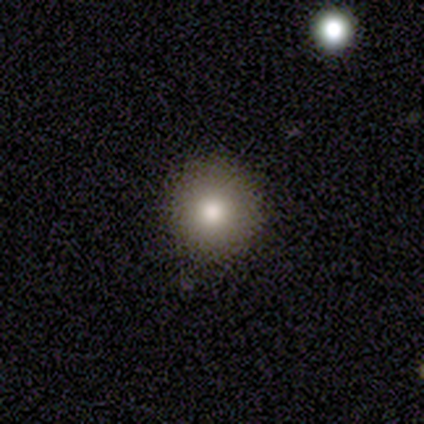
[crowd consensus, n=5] This is clearly a smooth galaxy (80%). How rounded: clearly round (100%). Merging: clearly none (100%).